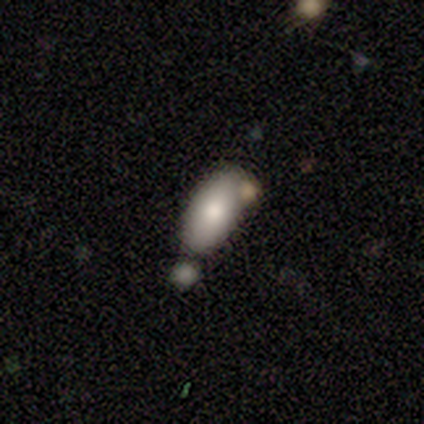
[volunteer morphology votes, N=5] Volunteers were most divided on "merging" (2-way tie): none: 40%, minor disturbance: 40%, merger: 20%, major disturbance: 0%. More confident: smooth or featured — smooth (100%); how rounded — in between (100%).